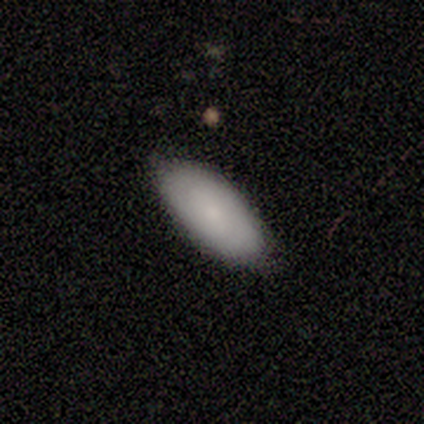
This appears to be a smooth galaxy with no disk features (100%) that is in between round and cigar-shaped (100%). Merging: none (80%).